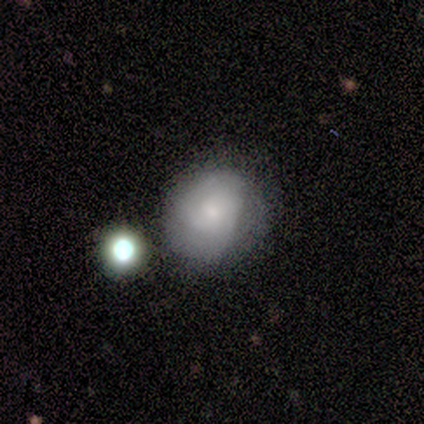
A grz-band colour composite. It shows a smooth galaxy with no disk features (75%) that is round (67%). Merging: none (50%).